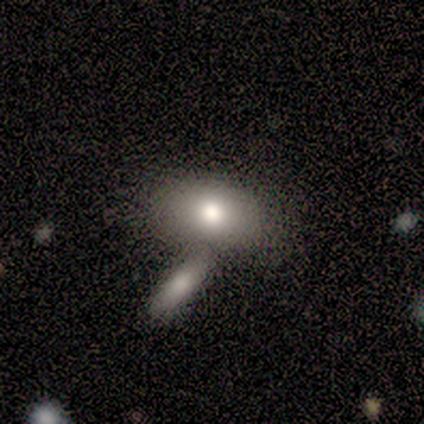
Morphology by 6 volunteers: A smooth galaxy with no disk features (67%) that is in between round and cigar-shaped (100%).

Vote fractions:
- Smooth or featured? smooth: 67% / featured or disk: 33% / star or artifact: 0%
- How rounded? in between: 100% / round: 0% / cigar-shaped: 0%
- Merging? merger: 50% / minor disturbance: 33% / none: 17% / major disturbance: 0%